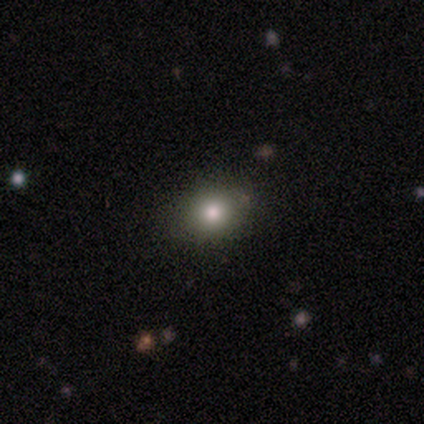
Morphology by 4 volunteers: Q: Smooth or featured?
A: smooth (75%); runner-up: featured or disk (25%)
Q: How rounded?
A: round (67%); runner-up: in between (33%)
Q: Merging?
A: none (100%)